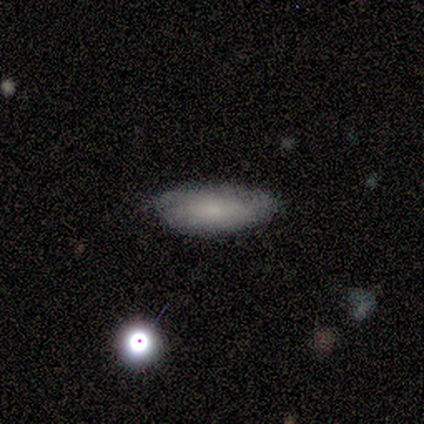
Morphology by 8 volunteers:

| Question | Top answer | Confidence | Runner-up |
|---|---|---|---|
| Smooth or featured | smooth | 50% | featured or disk (25%) |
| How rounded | in between | 100% | — |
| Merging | none | 67% | major disturbance (33%) |